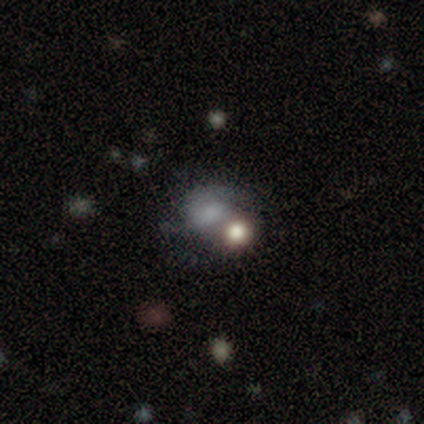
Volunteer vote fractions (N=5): Morphology: type=smooth (60%); roundness=in between (67%); merging=none (40%, tied with merger).